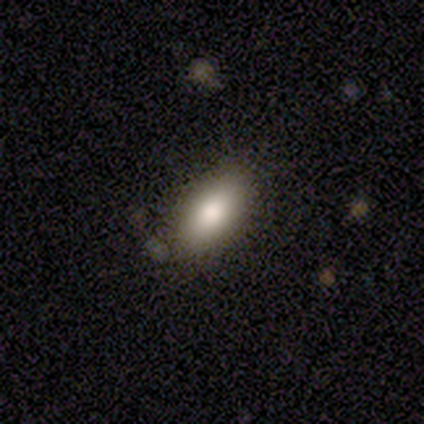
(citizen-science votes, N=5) A smooth galaxy with no disk features (80%) that is in between round and cigar-shaped (100%).

Vote fractions:
- Smooth or featured? smooth: 80% / star or artifact: 20% / featured or disk: 0%
- How rounded? in between: 100% / round: 0% / cigar-shaped: 0%
- Merging? none: 100% / minor disturbance: 0% / major disturbance: 0% / merger: 0%